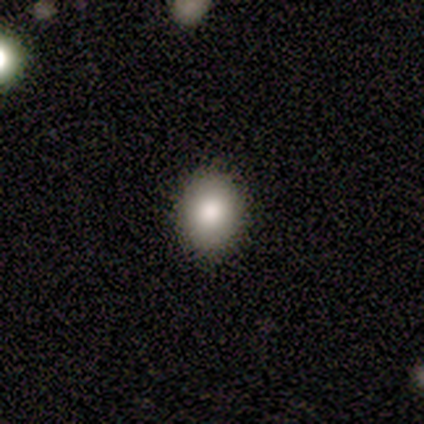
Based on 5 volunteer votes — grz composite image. It shows a smooth galaxy with no disk features (80%) that is in between round and cigar-shaped (100%). Merging: none (100%).